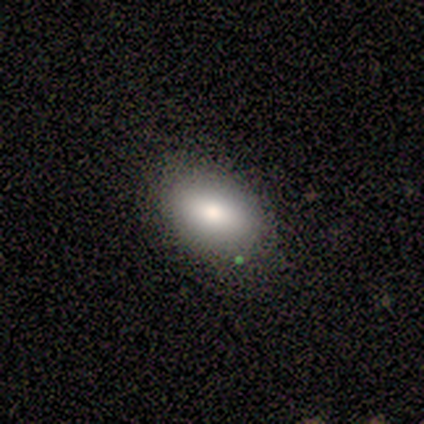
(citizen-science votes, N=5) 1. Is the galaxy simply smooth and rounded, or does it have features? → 100% smooth, 0% featured or disk, 0% star or artifact.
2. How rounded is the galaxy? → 80% in between, 20% round, 0% cigar-shaped.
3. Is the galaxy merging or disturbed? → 100% none, 0% minor disturbance, 0% major disturbance, 0% merger.